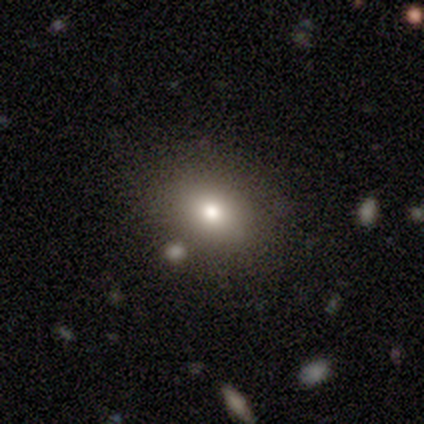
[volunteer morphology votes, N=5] Smooth or featured? 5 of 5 (100%) said smooth. How rounded? 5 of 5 (100%) said in between. Merging? 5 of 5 (100%) said none.